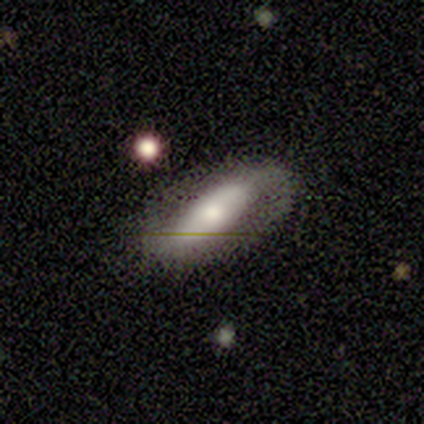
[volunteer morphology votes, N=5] A smooth galaxy with no disk features (60%) that is in between round and cigar-shaped (100%). Merging: none (80%).